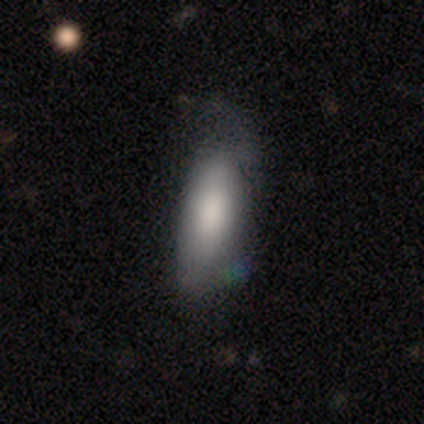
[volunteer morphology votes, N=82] Overall: smooth (78%). How rounded: in between (75%). Merging: minor disturbance (44%; none 38%).